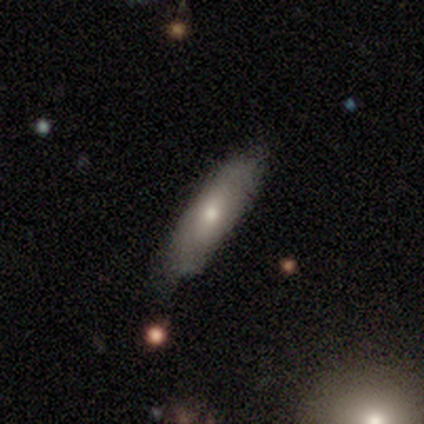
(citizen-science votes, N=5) smooth_or_featured: featured or disk (p=0.80) [alt: smooth p=0.20]
disk_edge_on: yes (p=0.75) [alt: no p=0.25]
edge_on_bulge: none (p=0.67) [alt: rounded p=0.33]
merging: none (p=0.80) [alt: minor disturbance p=0.20]